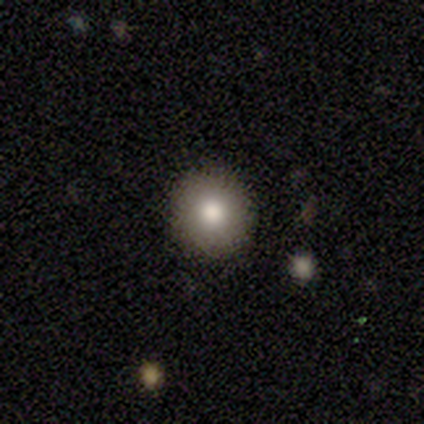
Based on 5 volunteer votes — A smooth galaxy with no disk features (80%) that is round (100%).

Vote fractions:
- Smooth or featured? smooth: 80% / star or artifact: 20% / featured or disk: 0%
- How rounded? round: 100% / in between: 0% / cigar-shaped: 0%
- Merging? none: 100% / minor disturbance: 0% / major disturbance: 0% / merger: 0%